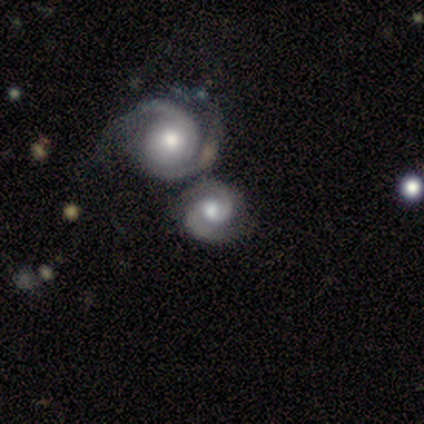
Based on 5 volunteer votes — featured or disk 80%, smooth 20%, star or artifact 0%. Down the decision tree: edge-on disk — no (100%); bar — no (75%); spiral arms — yes (100%); spiral arm count — 2 (100%); spiral winding — tight (50%, tied with medium); bulge size — moderate (100%); merging — none (100%).